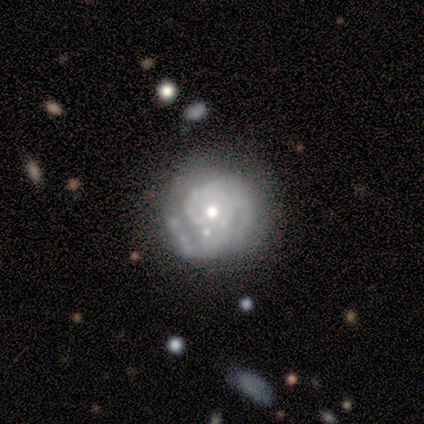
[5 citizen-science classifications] Volunteers were most divided on "spiral arm count" (3-way tie): 2: 33%, 3: 33%, can't tell: 33%, 1: 0%, 4: 0%, more than 4: 0%. More confident: smooth or featured — featured or disk (100%); bar — no (100%); spiral arms — yes (100%); spiral winding — tight (67%); bulge size — moderate (67%); edge-on disk — no (60%); merging — none (60%).